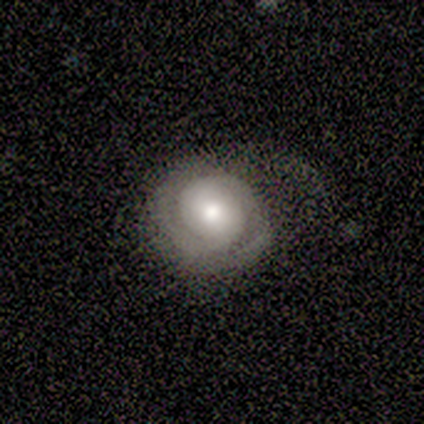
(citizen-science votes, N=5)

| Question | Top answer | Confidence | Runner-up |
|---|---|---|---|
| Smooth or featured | featured or disk | 40% | tied: star or artifact (40%) |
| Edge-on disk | no | 100% | — |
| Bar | weak | 100% | — |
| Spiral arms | yes | 100% | — |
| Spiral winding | tight | 50% | tied: loose (50%) |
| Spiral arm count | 1 | 50% | tied: 2 (50%) |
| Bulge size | moderate | 50% | tied: small (50%) |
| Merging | none | 67% | minor disturbance (33%) |